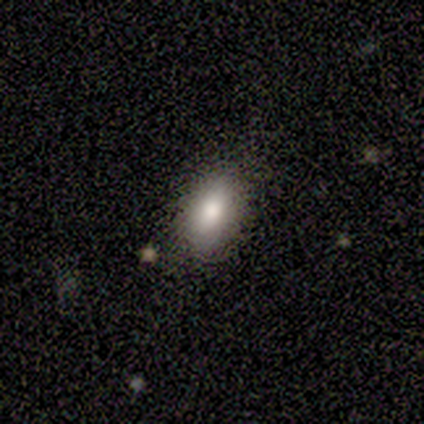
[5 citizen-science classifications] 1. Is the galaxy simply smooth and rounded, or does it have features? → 80% smooth, 20% featured or disk, 0% star or artifact.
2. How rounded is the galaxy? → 75% in between, 25% round, 0% cigar-shaped.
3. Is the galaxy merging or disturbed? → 100% none, 0% minor disturbance, 0% major disturbance, 0% merger.